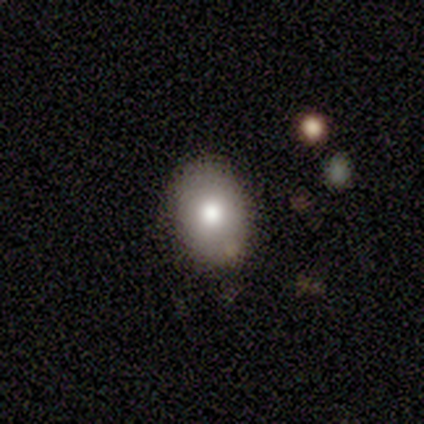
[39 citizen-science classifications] Q: Smooth or featured?
A: smooth (79%); runner-up: featured or disk (10%)
Q: How rounded?
A: in between (94%); runner-up: round (6%)
Q: Merging?
A: none (91%); runner-up: minor disturbance (6%)